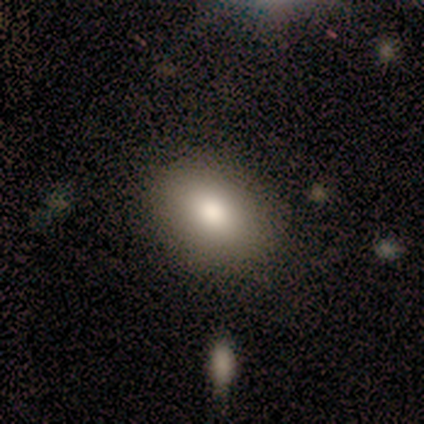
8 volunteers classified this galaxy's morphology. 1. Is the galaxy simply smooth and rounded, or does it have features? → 62% smooth, 25% star or artifact, 12% featured or disk.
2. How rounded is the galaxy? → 100% in between, 0% round, 0% cigar-shaped.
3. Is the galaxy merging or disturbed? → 67% none, 33% minor disturbance, 0% major disturbance, 0% merger.